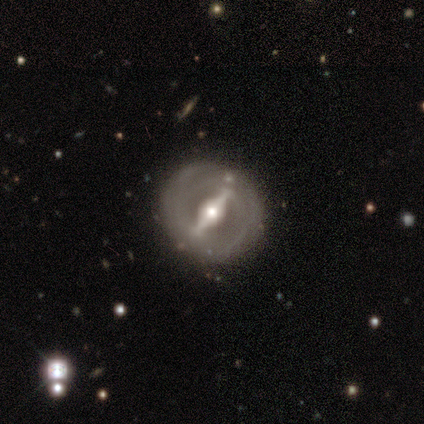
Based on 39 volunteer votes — Morphology: type=featured or disk (85%); edge-on=no (91%); bar=strong (83%); spiral arms=yes (50%, tied with no); winding=tight (87%); arm count=2 (40%); bulge=moderate (53%); merging=none (86%).